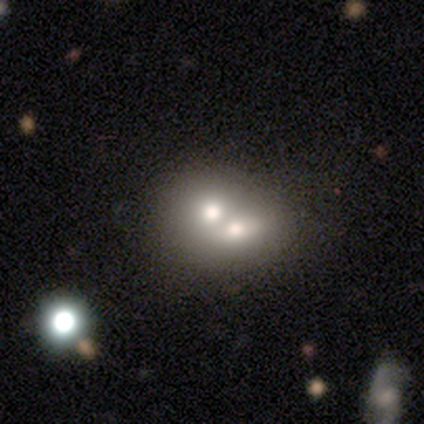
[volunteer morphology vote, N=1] type=smooth (100%); roundness=round (100%); merging=none (100%).